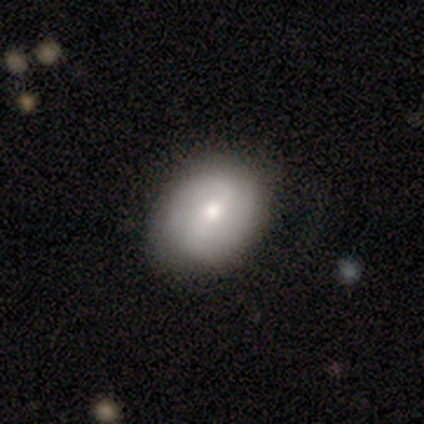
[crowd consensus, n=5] Smooth or featured?
  - featured or disk: 60% *
  - smooth: 40%
  - star or artifact: 0%
Edge-on disk?
  - no: 100% *
  - yes: 0%
Bar?
  - strong: 33% * (tied)
  - weak: 33% * (tied)
  - no: 33% * (tied)
Spiral arms?
  - yes: 67% *
  - no: 33%
Spiral winding?
  - tight: 50% * (tied)
  - medium: 50% * (tied)
  - loose: 0%
Spiral arm count?
  - 2: 100% *
  - 1: 0%
  - 3: 0%
  - 4: 0%
  - more than 4: 0%
  - can't tell: 0%
Bulge size?
  - moderate: 67% *
  - small: 33%
  - dominant: 0%
  - large: 0%
  - none: 0%
Merging?
  - none: 100% *
  - minor disturbance: 0%
  - major disturbance: 0%
  - merger: 0%